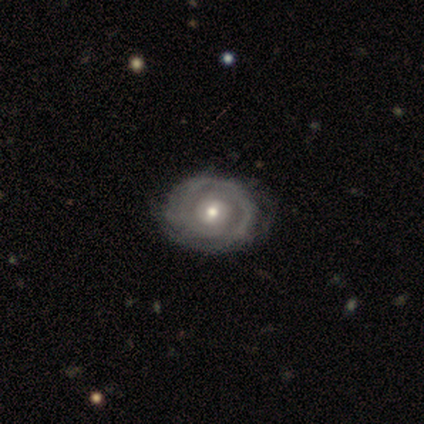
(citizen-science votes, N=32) Q: Smooth or featured?
A: featured or disk (81%); runner-up: smooth (12%)
Q: Edge-on disk?
A: no (96%); runner-up: yes (4%)
Q: Bar?
A: no (72%); runner-up: weak (28%)
Q: Spiral arms?
A: yes (76%); runner-up: no (24%)
Q: Spiral winding?
A: tight (89%); runner-up: medium (5%)
Q: Spiral arm count?
A: 2 (42%); runner-up: can't tell (32%)
Q: Bulge size?
A: moderate (64%); runner-up: small (32%)
Q: Merging?
A: none (77%); runner-up: minor disturbance (20%)